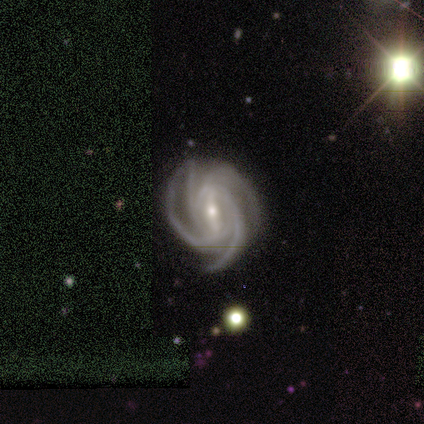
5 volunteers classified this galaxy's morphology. Q: Smooth or featured?
A: featured or disk (100%)
Q: Edge-on disk?
A: no (100%)
Q: Bar?
A: strong (60%); runner-up: weak (40%)
Q: Spiral arms?
A: yes (100%)
Q: Spiral winding?
A: tight (60%); runner-up: medium (40%)
Q: Spiral arm count?
A: 4 (60%); runner-up: 3 (20%)
Q: Bulge size?
A: small (60%); runner-up: moderate (40%)
Q: Merging?
A: none (100%)